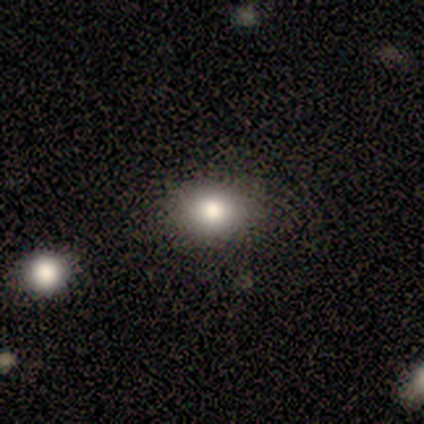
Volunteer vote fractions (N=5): A smooth galaxy with no disk features (80%) that is in between round and cigar-shaped (75%). Merging: none (100%).